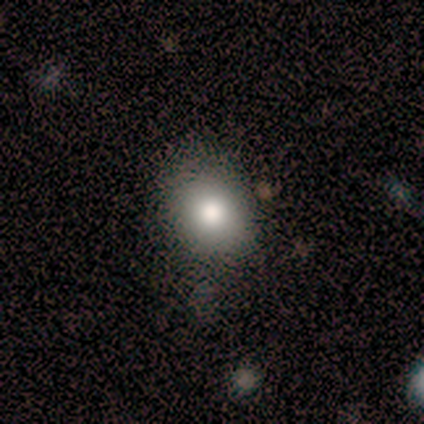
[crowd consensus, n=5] A smooth galaxy with no disk features (60%) that is round (100%). Merging: none (80%).